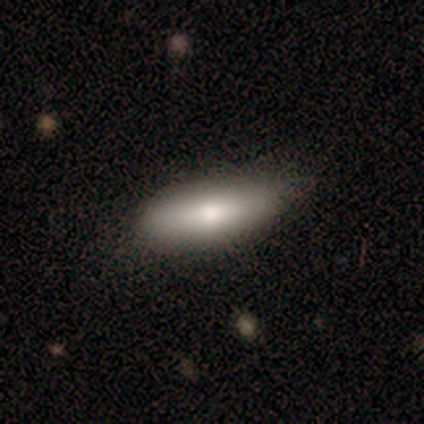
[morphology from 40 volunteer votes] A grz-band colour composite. It shows a smooth galaxy with no disk features (80%) that is in between round and cigar-shaped (72%). Merging: none (64%).